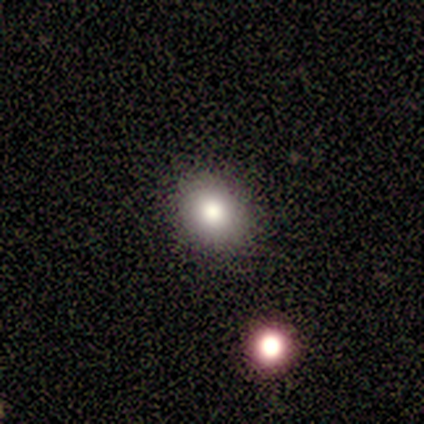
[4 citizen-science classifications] This is clearly a smooth galaxy (100%). How rounded: possibly round (50%, tied with in between). Merging: clearly none (100%).